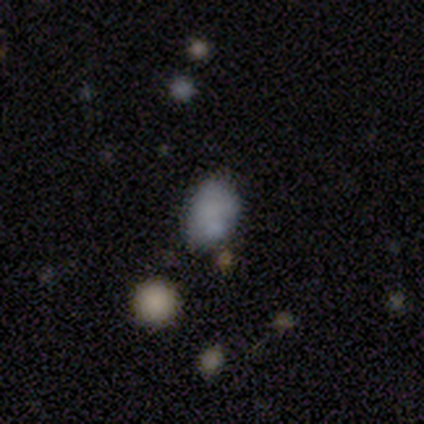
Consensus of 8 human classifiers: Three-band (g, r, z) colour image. It shows a smooth galaxy with no disk features (75%) that is in between round and cigar-shaped (67%). Merging: none (71%).